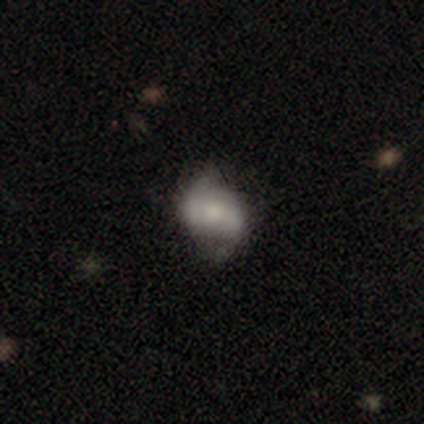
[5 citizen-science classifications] smooth 80%, featured or disk 20%, star or artifact 0%. Down the decision tree: how rounded — round (50%, tied with in between); merging — minor disturbance (80%).